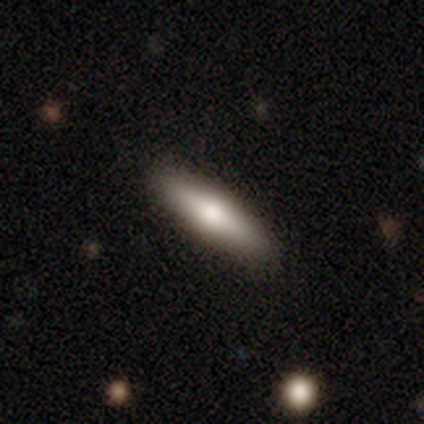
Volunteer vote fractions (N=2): Volunteers were most divided on "merging" (2-way tie): none: 50%, major disturbance: 50%, minor disturbance: 0%, merger: 0%. More confident: smooth or featured — smooth (100%); how rounded — cigar-shaped (100%).